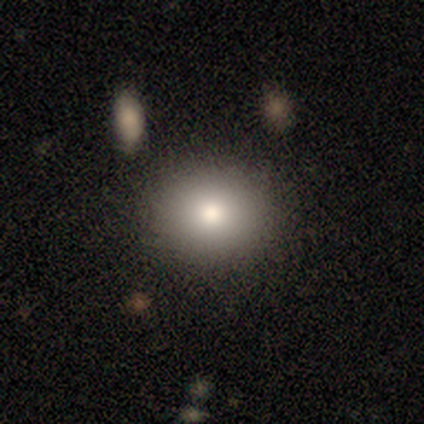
Overall: smooth (80%). How rounded: round (50%, tied with in between). Merging: none (100%).